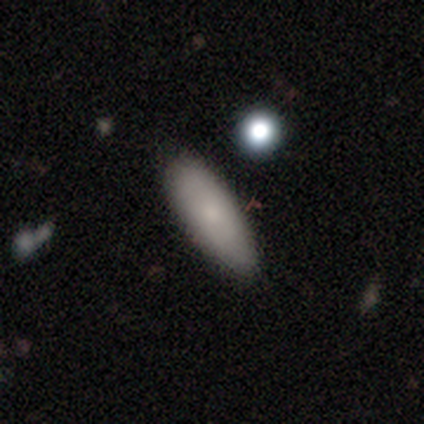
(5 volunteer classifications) A smooth galaxy with no disk features (100%) that is in between round and cigar-shaped (60%). Merging: none (80%).